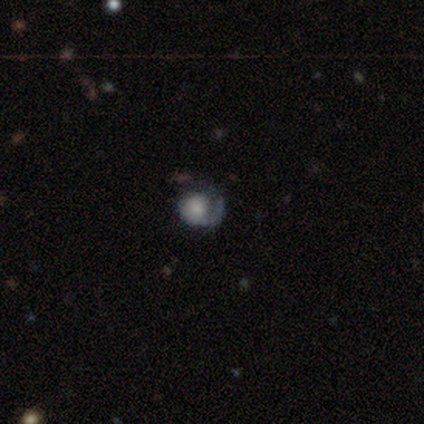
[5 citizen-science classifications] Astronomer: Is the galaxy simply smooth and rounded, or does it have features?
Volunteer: featured or disk — 80%.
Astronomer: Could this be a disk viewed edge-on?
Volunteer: no — 100%.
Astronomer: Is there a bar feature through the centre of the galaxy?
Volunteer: no — 75%.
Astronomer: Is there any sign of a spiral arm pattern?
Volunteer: yes — 100%.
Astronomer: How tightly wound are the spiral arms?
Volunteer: medium — 50%.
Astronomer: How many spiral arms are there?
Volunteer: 1 — 100%.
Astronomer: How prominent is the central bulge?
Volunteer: moderate — 75%.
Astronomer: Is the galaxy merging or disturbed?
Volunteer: none — 40%, tied with major disturbance at 40%.